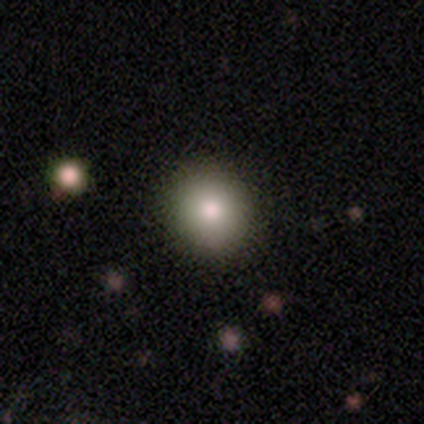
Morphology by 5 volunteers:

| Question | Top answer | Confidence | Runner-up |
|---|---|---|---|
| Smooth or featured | smooth | 100% | — |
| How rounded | round | 100% | — |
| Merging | none | 100% | — |